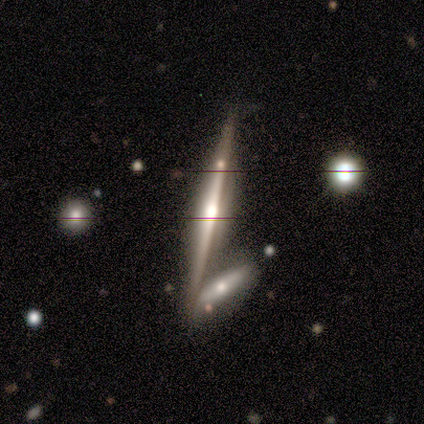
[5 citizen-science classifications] A featured or disk galaxy (60%) viewed edge-on (100%) with a rounded central bulge (67%).

Vote fractions:
- Smooth or featured? featured or disk: 60% / smooth: 20% / star or artifact: 20%
- Edge-on disk? yes: 100% / no: 0%
- Edge-on bulge? rounded: 67% / boxy: 33% / none: 0%
- Merging? none: 75% / merger: 25% / minor disturbance: 0% / major disturbance: 0%